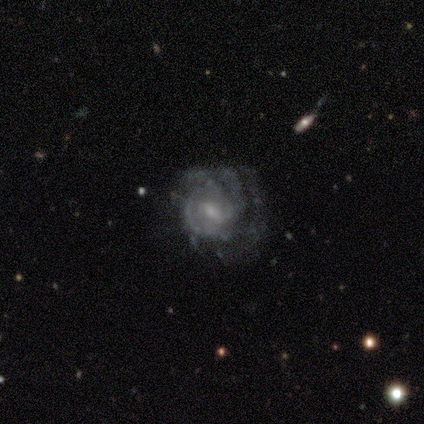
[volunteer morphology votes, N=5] Smooth or featured?
  - featured or disk: 100% *
  - smooth: 0%
  - star or artifact: 0%
Edge-on disk?
  - no: 100% *
  - yes: 0%
Bar?
  - weak: 100% *
  - strong: 0%
  - no: 0%
Spiral arms?
  - yes: 100% *
  - no: 0%
Spiral winding?
  - tight: 60% *
  - medium: 40%
  - loose: 0%
Spiral arm count?
  - 3: 60% *
  - can't tell: 40%
  - 1: 0%
  - 2: 0%
  - 4: 0%
  - more than 4: 0%
Bulge size?
  - small: 80% *
  - moderate: 20%
  - dominant: 0%
  - large: 0%
  - none: 0%
Merging?
  - none: 40% * (tied)
  - minor disturbance: 40% * (tied)
  - major disturbance: 20%
  - merger: 0%